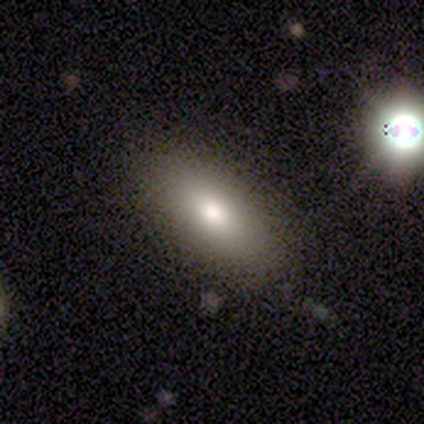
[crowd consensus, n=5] Smooth or featured: smooth — 80% (featured or disk — 20%)
How rounded: in between — 100%
Merging: none — 100%